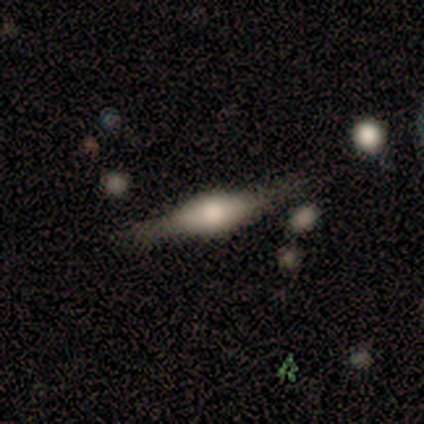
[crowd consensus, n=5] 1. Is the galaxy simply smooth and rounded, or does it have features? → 60% featured or disk, 20% smooth, 20% star or artifact.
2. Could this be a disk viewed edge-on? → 100% yes, 0% no.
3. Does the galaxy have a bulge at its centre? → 100% rounded, 0% boxy, 0% none.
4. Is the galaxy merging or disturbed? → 100% none, 0% minor disturbance, 0% major disturbance, 0% merger.